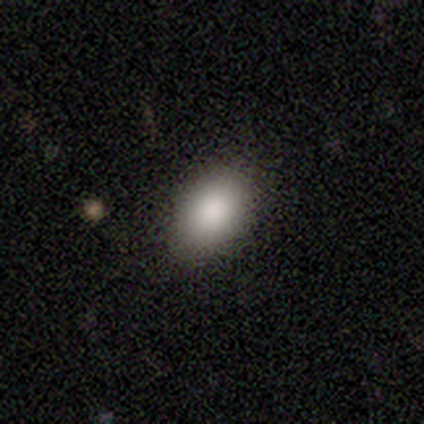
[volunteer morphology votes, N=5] A smooth galaxy with no disk features (100%) that is in between round and cigar-shaped (60%). Merging: none (80%).